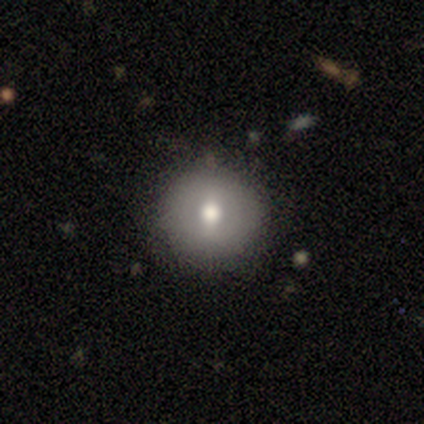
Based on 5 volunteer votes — A smooth galaxy with no disk features (60%) that is round (100%).

Vote fractions:
- Smooth or featured? smooth: 60% / star or artifact: 40% / featured or disk: 0%
- How rounded? round: 100% / in between: 0% / cigar-shaped: 0%
- Merging? none: 100% / minor disturbance: 0% / major disturbance: 0% / merger: 0%